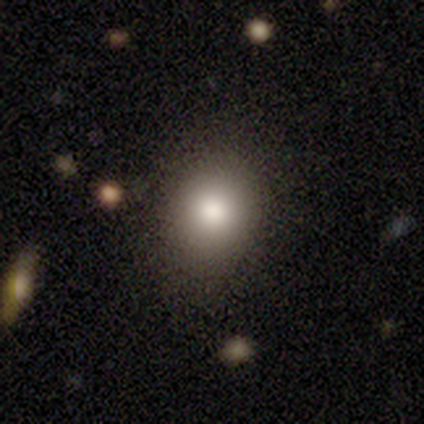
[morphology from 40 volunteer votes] smooth 82%, featured or disk 12%, star or artifact 5%. Down the decision tree: how rounded — round (55%); merging — none (39%).